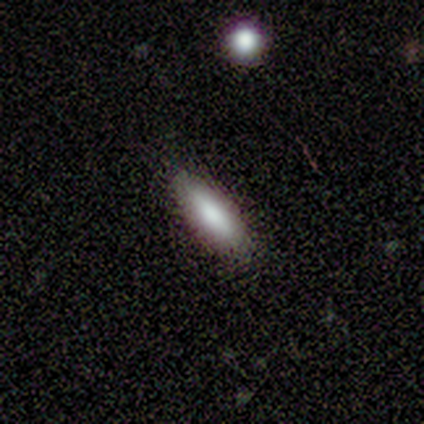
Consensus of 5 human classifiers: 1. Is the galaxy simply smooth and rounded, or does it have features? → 100% smooth, 0% featured or disk, 0% star or artifact.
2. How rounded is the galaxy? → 60% in between, 40% cigar-shaped, 0% round.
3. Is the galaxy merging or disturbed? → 80% none, 20% minor disturbance, 0% major disturbance, 0% merger.